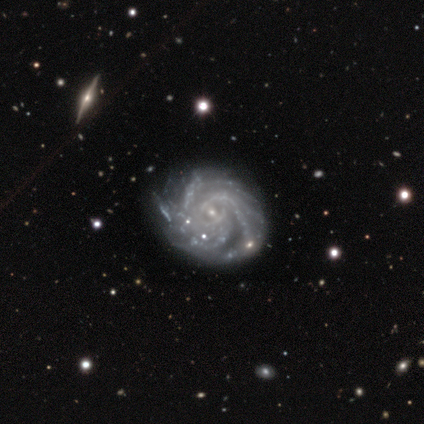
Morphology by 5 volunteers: A featured or disk galaxy (100%) with no bar (60%), more than 4 (80%) tight (60%) spiral arms (100%) and a small central bulge (100%).

Vote fractions:
- Smooth or featured? featured or disk: 100% / smooth: 0% / star or artifact: 0%
- Edge-on disk? no: 100% / yes: 0%
- Bar? no: 60% / weak: 40% / strong: 0%
- Spiral arms? yes: 100% / no: 0%
- Spiral winding? tight: 60% / medium: 20% / loose: 20%
- Spiral arm count? more than 4: 80% / 3: 20% / 1: 0% / 2: 0% / 4: 0% / can't tell: 0%
- Bulge size? small: 100% / dominant: 0% / large: 0% / moderate: 0% / none: 0%
- Merging? none: 60% / minor disturbance: 40% / major disturbance: 0% / merger: 0%